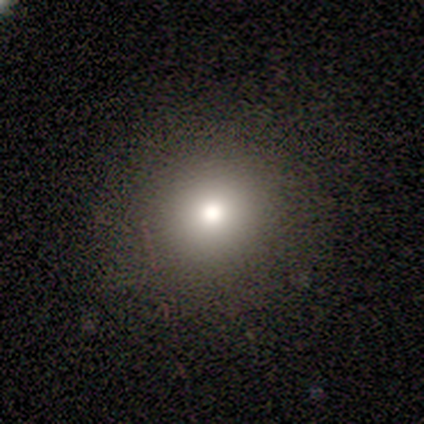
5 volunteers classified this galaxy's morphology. Smooth or featured?
  - smooth: 60% *
  - featured or disk: 20%
  - star or artifact: 20%
How rounded?
  - round: 100% *
  - in between: 0%
  - cigar-shaped: 0%
Merging?
  - none: 100% *
  - minor disturbance: 0%
  - major disturbance: 0%
  - merger: 0%